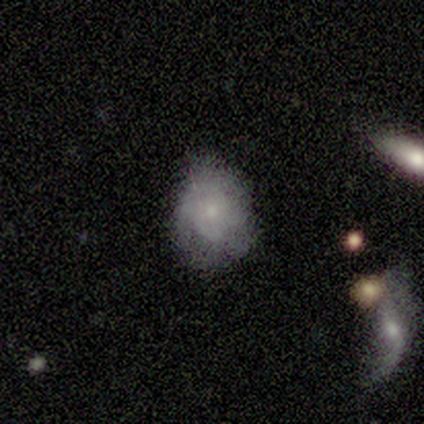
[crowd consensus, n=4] Morphology: type=smooth (50%, tied with featured or disk); roundness=round (50%, tied with in between); merging=none (75%).